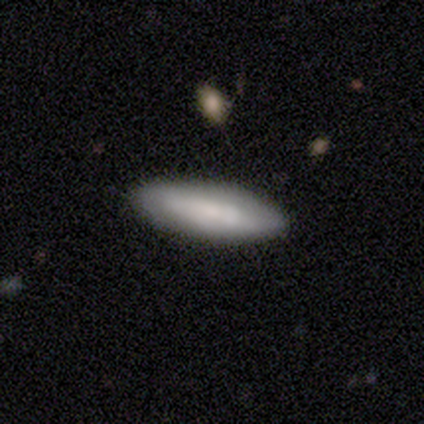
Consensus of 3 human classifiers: Morphology: type=smooth (67%); roundness=in between (100%); merging=none (100%).